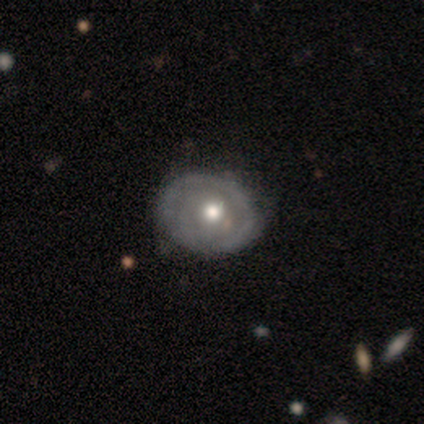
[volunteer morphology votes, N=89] Volunteers were most divided on "spiral arms": no: 55%, yes: 45%. More confident: edge-on disk — no (100%); bar — no (84%); merging — none (81%); bulge size — moderate (75%); smooth or featured — featured or disk (57%).